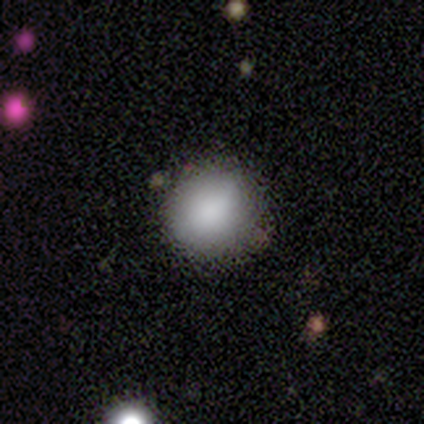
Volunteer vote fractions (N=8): Morphology: type=smooth (88%); roundness=round (100%); merging=none (75%).